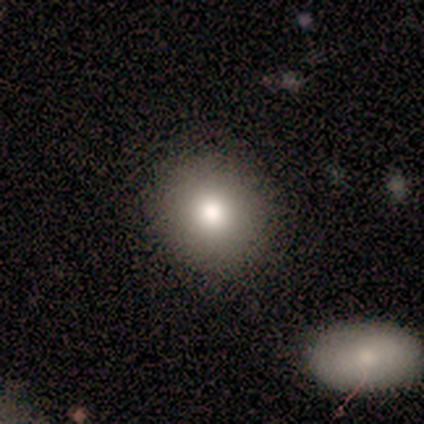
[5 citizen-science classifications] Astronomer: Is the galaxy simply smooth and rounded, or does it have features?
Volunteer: smooth — 80%.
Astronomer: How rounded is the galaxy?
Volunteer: round — 100%.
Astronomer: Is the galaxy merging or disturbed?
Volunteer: none — 100%.